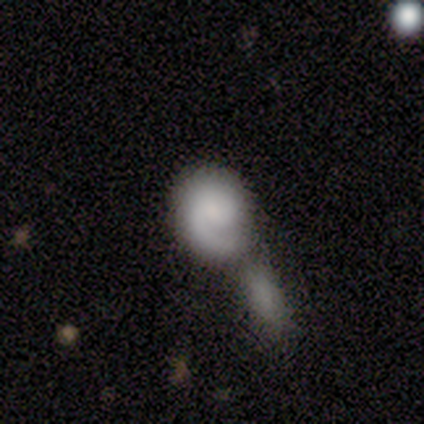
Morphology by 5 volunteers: A featured or disk galaxy (60%) with no bar (100%), 1 (67%) medium (67%) spiral arms (100%) and no central bulge (67%).

Vote fractions:
- Smooth or featured? featured or disk: 60% / smooth: 40% / star or artifact: 0%
- Edge-on disk? no: 100% / yes: 0%
- Bar? no: 100% / strong: 0% / weak: 0%
- Spiral arms? yes: 100% / no: 0%
- Spiral winding? medium: 67% / tight: 33% / loose: 0%
- Spiral arm count? 1: 67% / can't tell: 33% / 2: 0% / 3: 0% / 4: 0% / more than 4: 0%
- Bulge size? none: 67% / small: 33% / dominant: 0% / large: 0% / moderate: 0%
- Merging? merger: 80% / none: 20% / minor disturbance: 0% / major disturbance: 0%